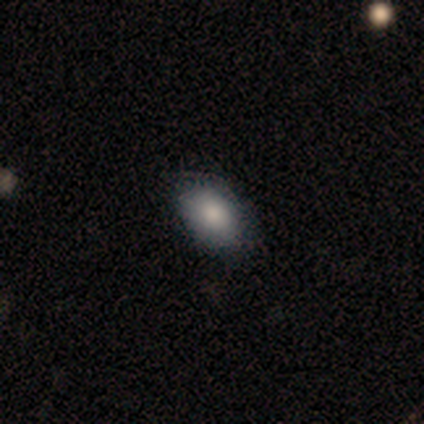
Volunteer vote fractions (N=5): Volunteers were most divided on "smooth or featured": smooth: 80%, featured or disk: 20%, star or artifact: 0%. More confident: how rounded — in between (100%); merging — none (100%).